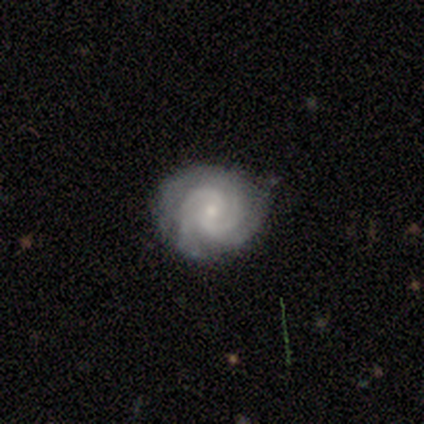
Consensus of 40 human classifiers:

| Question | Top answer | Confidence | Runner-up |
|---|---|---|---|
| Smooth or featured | featured or disk | 92% | star or artifact (5%) |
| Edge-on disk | no | 97% | yes (3%) |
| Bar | no | 53% | weak (39%) |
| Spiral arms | yes | 100% | — |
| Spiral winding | tight | 56% | medium (39%) |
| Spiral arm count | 3 | 53% | 2 (31%) |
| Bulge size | small | 53% | moderate (39%) |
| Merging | none | 79% | minor disturbance (18%) |